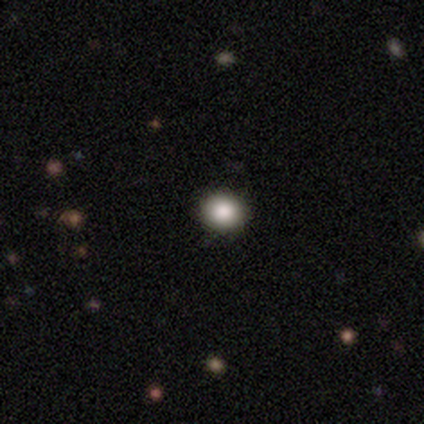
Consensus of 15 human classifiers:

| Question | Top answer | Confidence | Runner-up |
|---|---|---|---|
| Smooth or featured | smooth | 80% | star or artifact (20%) |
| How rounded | round | 92% | in between (8%) |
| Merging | none | 92% | minor disturbance (8%) |